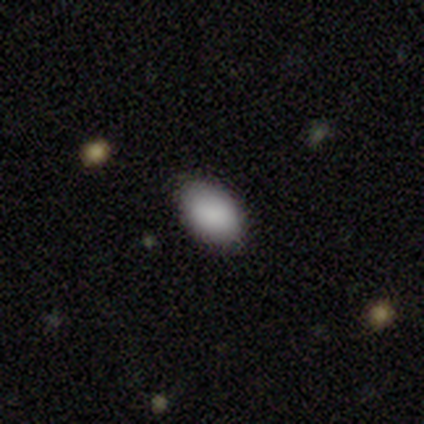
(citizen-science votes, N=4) Q: Smooth or featured?
A: smooth (100%)
Q: How rounded?
A: in between (100%)
Q: Merging?
A: none (100%)